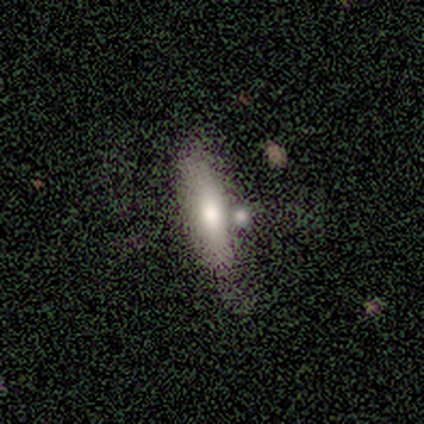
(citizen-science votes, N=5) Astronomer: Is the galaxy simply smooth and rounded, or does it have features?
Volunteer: smooth — 60% (runner-up: featured or disk, 40%).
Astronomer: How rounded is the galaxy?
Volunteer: cigar-shaped — 100%.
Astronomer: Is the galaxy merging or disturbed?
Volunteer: none — 80%.